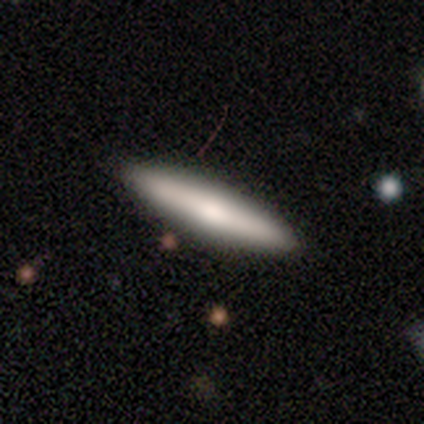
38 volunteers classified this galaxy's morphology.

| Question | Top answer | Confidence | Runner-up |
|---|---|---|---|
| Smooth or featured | smooth | 71% | featured or disk (29%) |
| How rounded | cigar-shaped | 96% | in between (4%) |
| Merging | none | 100% | — |